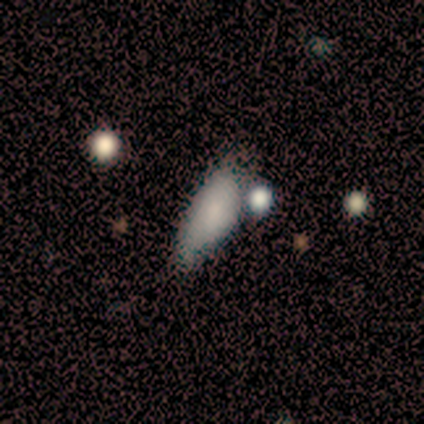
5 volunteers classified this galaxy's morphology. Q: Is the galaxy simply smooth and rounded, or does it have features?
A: smooth — 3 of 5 (60%).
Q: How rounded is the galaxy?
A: in between — 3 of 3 (100%).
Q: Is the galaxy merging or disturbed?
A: none — 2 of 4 (50%).